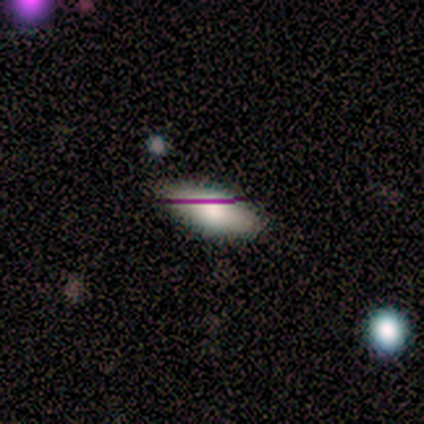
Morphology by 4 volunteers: Smooth or featured: smooth — 100%
How rounded: in between — 100%
Merging: none — 100%